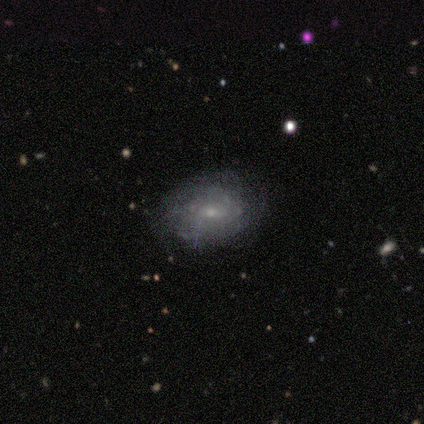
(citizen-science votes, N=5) smooth_or_featured: featured or disk (p=0.80) [alt: smooth p=0.20]
disk_edge_on: no (p=1.00)
bar: weak (p=0.50) [tied with: no p=0.50]
has_spiral_arms: yes (p=0.75) [alt: no p=0.25]
spiral_winding: tight (p=0.67) [alt: medium p=0.33]
spiral_arm_count: 2 (p=0.33) [tied with: more than 4 p=0.33, can't tell p=0.33]
bulge_size: small (p=1.00)
merging: none (p=0.80) [alt: minor disturbance p=0.20]